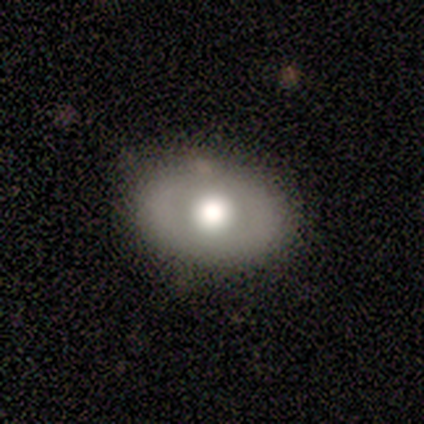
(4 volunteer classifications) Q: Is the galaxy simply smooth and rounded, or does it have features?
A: smooth — 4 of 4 (100%).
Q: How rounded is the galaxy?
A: in between — 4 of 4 (100%).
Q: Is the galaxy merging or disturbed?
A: minor disturbance — 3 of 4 (75%).